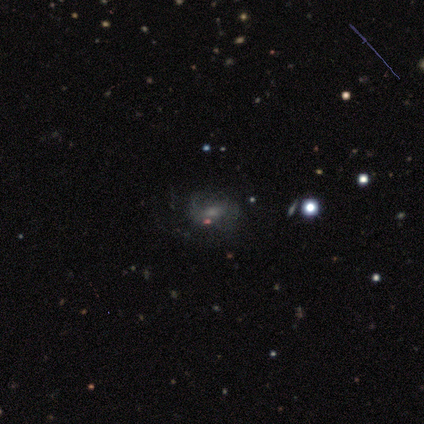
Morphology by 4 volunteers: smooth-or-featured: smooth: 50% | featured or disk: 25% | star or artifact: 25%
  how-rounded: in between: 100% | round: 0% | cigar-shaped: 0%
  merging: none: 67% | minor disturbance: 33% | major disturbance: 0% | merger: 0%